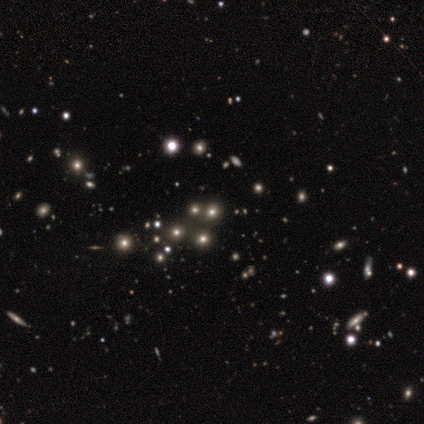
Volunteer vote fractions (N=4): Overall: star or artifact (75%).